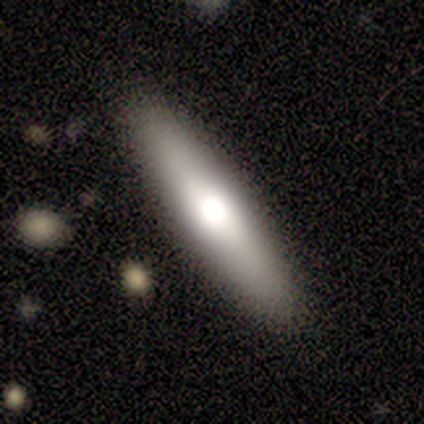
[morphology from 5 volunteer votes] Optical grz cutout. It shows a smooth galaxy with no disk features (80%) that is cigar-shaped (100%). Merging: none (80%).